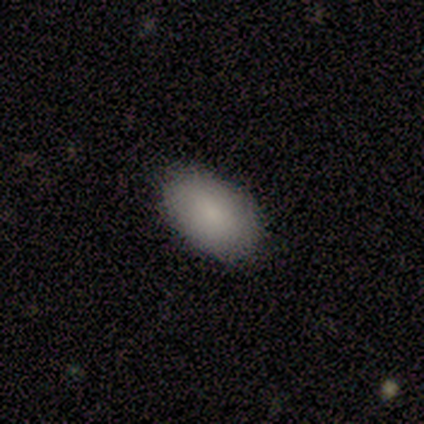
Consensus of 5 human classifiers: Smooth or featured: smooth — 80% (star or artifact — 20%)
How rounded: in between — 75% (cigar-shaped — 25%)
Merging: none — 100%